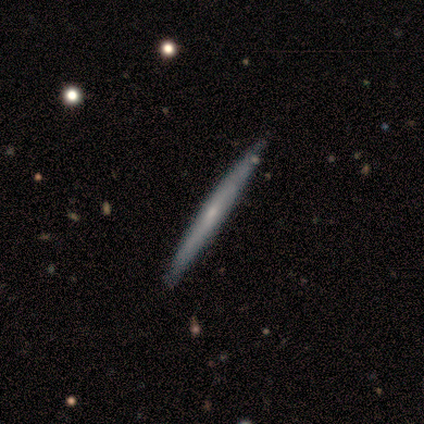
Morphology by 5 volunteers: smooth_or_featured: featured or disk (p=0.60) [alt: smooth p=0.40]
disk_edge_on: yes (p=1.00)
edge_on_bulge: none (p=0.67) [alt: rounded p=0.33]
merging: none (p=0.80) [alt: minor disturbance p=0.20]